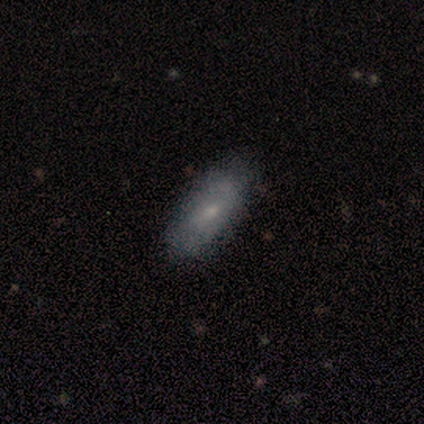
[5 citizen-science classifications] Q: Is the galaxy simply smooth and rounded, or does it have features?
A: featured or disk — 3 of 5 (60%).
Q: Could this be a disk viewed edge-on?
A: no — 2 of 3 (67%).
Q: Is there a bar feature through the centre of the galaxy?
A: no — 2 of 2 (100%).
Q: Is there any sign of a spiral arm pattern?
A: yes — 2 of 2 (100%).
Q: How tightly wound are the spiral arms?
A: tight — 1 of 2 (50%, tied with loose).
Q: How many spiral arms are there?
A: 2 — 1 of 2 (50%, tied with can't tell).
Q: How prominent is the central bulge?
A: moderate — 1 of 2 (50%, tied with none).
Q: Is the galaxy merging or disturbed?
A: none — 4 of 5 (80%).